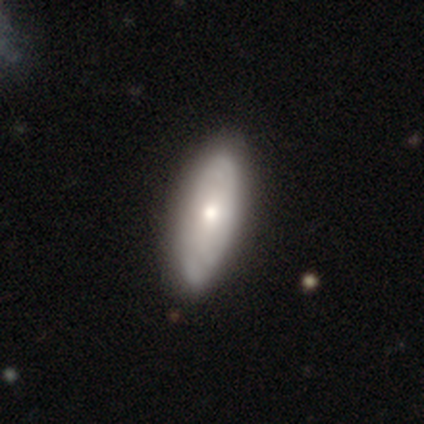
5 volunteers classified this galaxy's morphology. Volunteers were most divided on "how rounded": in between: 75%, cigar-shaped: 25%, round: 0%. More confident: smooth or featured — smooth (80%); merging — none (80%).